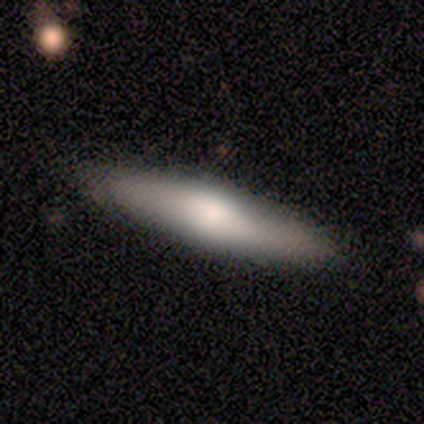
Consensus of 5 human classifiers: smooth 100%, featured or disk 0%, star or artifact 0%. Down the decision tree: how rounded — cigar-shaped (80%); merging — none (80%).